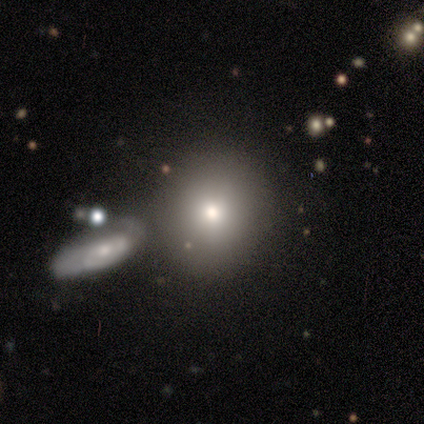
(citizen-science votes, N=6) Smooth or featured?
  - smooth: 50% *
  - star or artifact: 33%
  - featured or disk: 17%
How rounded?
  - round: 100% *
  - in between: 0%
  - cigar-shaped: 0%
Merging?
  - merger: 50% *
  - none: 25%
  - major disturbance: 25%
  - minor disturbance: 0%